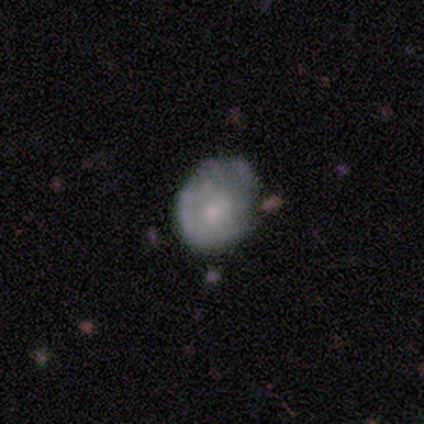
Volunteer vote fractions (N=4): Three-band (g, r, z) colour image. It shows a smooth galaxy with no disk features (50%, tied with featured or disk) that is round (50%, tied with in between). Merging: minor disturbance (75%).